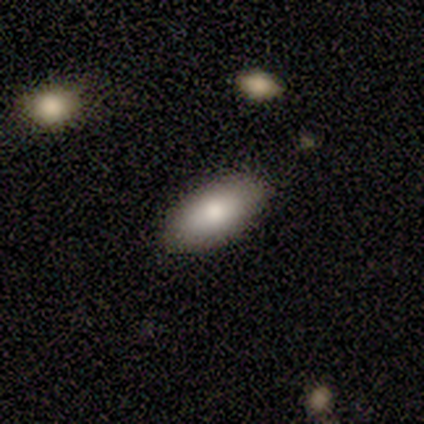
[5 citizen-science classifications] Smooth or featured: smooth — 80% (featured or disk — 20%)
How rounded: in between — 100%
Merging: none — 60% (minor disturbance — 40%)